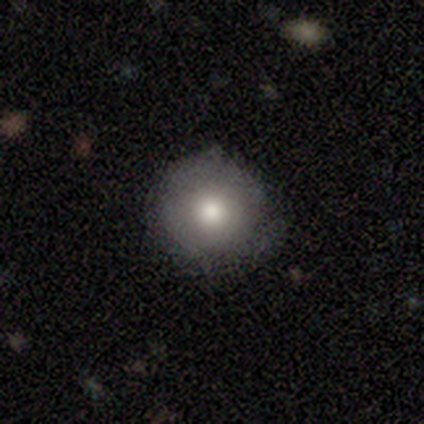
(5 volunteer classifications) Morphology: type=smooth (80%); roundness=round (100%); merging=none (75%).